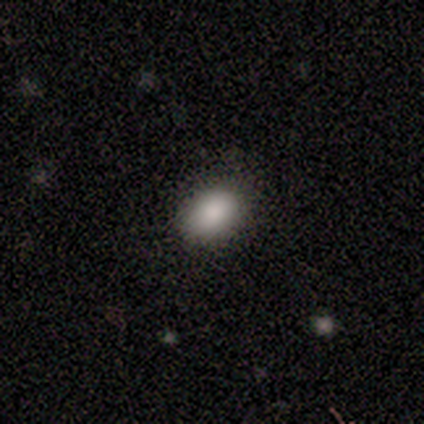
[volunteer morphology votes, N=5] Smooth or featured: smooth — 100%
How rounded: in between — 80% (round — 20%)
Merging: none — 60% (minor disturbance — 40%)